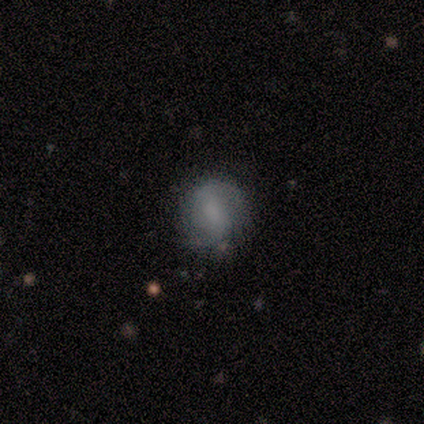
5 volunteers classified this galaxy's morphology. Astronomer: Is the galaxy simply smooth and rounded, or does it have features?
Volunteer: smooth — 40%, tied with featured or disk at 40%.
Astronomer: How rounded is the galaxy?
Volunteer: round — 50%, tied with in between at 50%.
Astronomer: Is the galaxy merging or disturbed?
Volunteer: none — 100%.